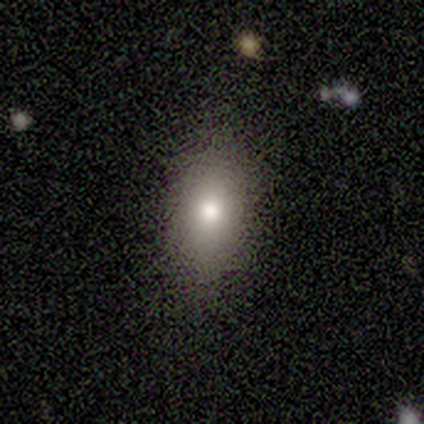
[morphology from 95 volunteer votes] type=smooth (73%); roundness=in between (81%); merging=none (77%).